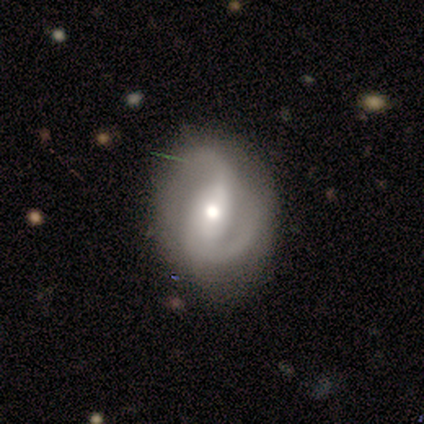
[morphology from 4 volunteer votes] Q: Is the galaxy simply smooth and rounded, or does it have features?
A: featured or disk — 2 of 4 (50%).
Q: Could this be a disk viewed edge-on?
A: no — 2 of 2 (100%).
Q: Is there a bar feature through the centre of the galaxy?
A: strong — 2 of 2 (100%).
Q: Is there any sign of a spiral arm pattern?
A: yes — 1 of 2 (50%, tied with no).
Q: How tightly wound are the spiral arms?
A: tight — 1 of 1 (100%).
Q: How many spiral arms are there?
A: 2 — 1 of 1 (100%).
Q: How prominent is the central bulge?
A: moderate — 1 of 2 (50%, tied with small).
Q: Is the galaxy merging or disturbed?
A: minor disturbance — 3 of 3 (100%).